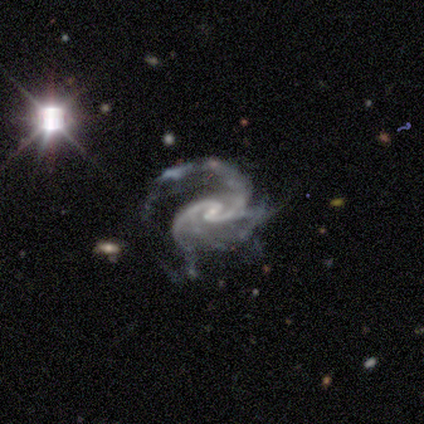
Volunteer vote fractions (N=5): Overall: featured or disk (100%). Edge-on disk: no (100%). Bar: weak (80%). Spiral arms: yes (80%). Spiral arm count: 3 (75%). Spiral winding: medium (100%). Bulge size: small (80%). Merging: minor disturbance (40%, tied with major disturbance).